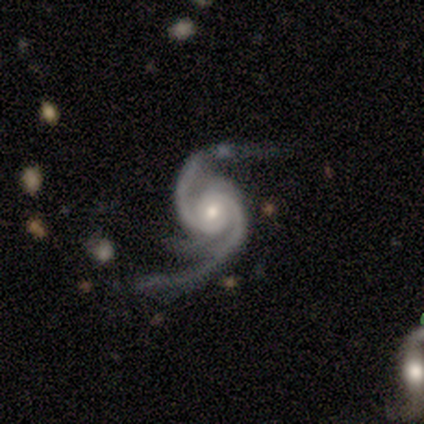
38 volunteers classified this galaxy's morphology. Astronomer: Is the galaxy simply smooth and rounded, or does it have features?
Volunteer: featured or disk — 97%.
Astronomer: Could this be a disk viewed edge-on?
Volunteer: no — 97%.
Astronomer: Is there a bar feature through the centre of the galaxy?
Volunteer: no — 56% (runner-up: weak, 33%).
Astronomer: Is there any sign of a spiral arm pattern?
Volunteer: yes — 100%.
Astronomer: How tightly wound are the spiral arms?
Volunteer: tight — 33%, tied with medium and loose at 33%.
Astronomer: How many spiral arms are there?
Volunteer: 2 — 50% (runner-up: 3, 36%).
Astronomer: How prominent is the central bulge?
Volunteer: moderate — 64%.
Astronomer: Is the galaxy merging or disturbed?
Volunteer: none — 51%.